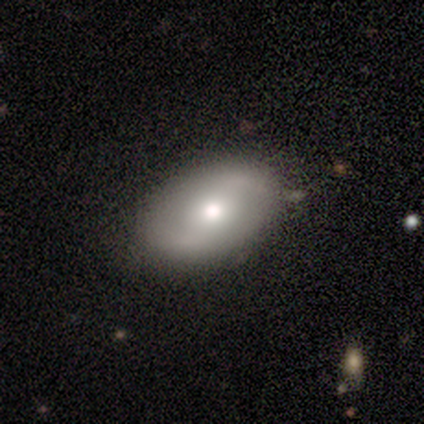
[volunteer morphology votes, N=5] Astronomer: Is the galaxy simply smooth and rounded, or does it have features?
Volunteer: smooth — 80%.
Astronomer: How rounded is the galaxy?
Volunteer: in between — 100%.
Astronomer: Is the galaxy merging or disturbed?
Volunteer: none — 80%.